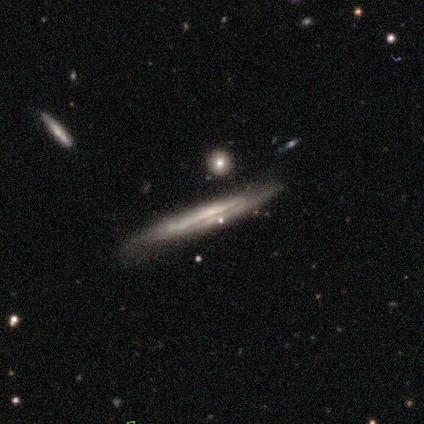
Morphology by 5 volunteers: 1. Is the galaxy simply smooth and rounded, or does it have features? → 60% featured or disk, 40% smooth, 0% star or artifact.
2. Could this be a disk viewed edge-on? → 100% yes, 0% no.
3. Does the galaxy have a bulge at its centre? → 67% none, 33% rounded, 0% boxy.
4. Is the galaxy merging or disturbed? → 80% none, 20% minor disturbance, 0% major disturbance, 0% merger.